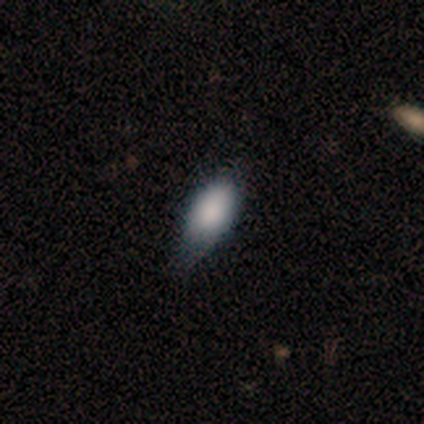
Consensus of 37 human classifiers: This appears to be a smooth galaxy with no disk features (81%) that is in between round and cigar-shaped (90%). Merging: none (50%).